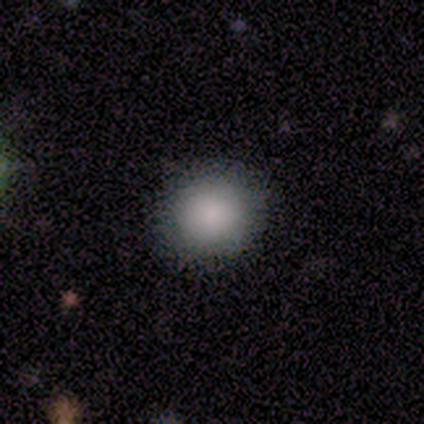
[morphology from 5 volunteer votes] This is clearly a smooth galaxy (80%). How rounded: likely round (75%). Merging: possibly none (50%, tied with minor disturbance).